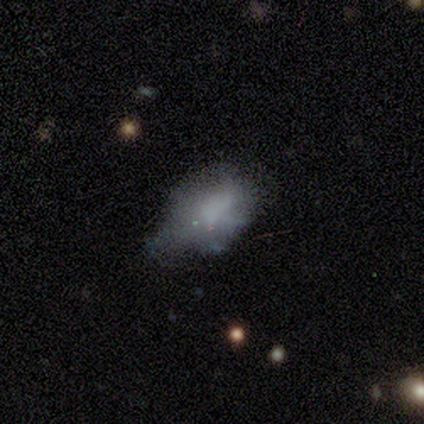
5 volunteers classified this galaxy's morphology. smooth-or-featured: smooth: 80% | featured or disk: 20% | star or artifact: 0%
  how-rounded: in between: 100% | round: 0% | cigar-shaped: 0%
  merging: none: 40% (tied) | major disturbance: 40% (tied) | minor disturbance: 20% | merger: 0%